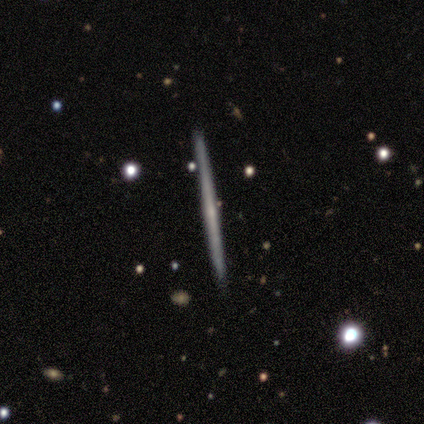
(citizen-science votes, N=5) Overall: smooth (60%; featured or disk 40%). How rounded: cigar-shaped (67%; round 33%). Merging: none (100%).